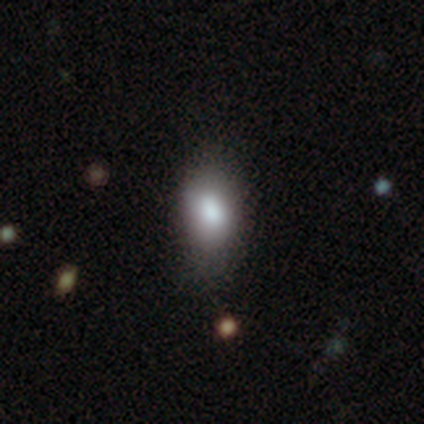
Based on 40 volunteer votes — Smooth or featured? 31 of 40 (78%) said smooth. How rounded? 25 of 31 (81%) said in between. Merging? 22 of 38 (58%) said none.